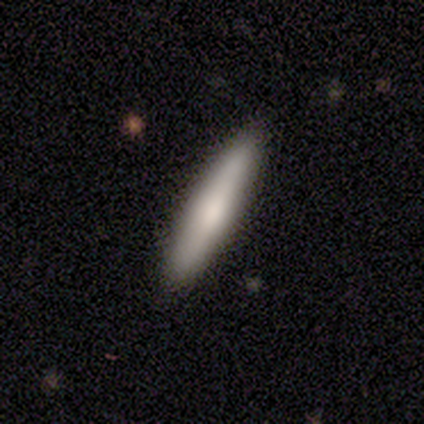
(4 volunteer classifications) Smooth or featured: smooth — 50% (tied with featured or disk — 50%)
How rounded: in between — 100%
Merging: none — 75% (minor disturbance — 25%)